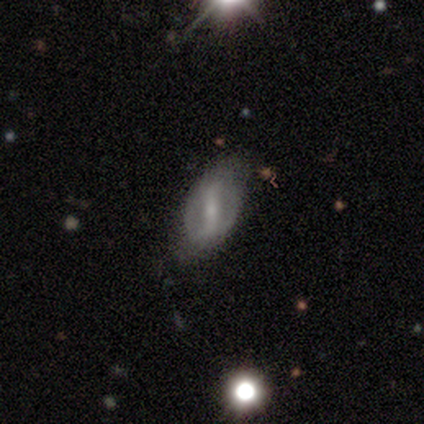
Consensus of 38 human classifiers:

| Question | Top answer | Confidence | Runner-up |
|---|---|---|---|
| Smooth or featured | featured or disk | 76% | smooth (18%) |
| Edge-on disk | no | 90% | yes (10%) |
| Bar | strong | 50% | weak (27%) |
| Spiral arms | yes | 69% | no (31%) |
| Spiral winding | loose | 61% | medium (39%) |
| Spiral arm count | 2 | 78% | can't tell (17%) |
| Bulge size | small | 62% | moderate (35%) |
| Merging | none | 67% | minor disturbance (22%) |